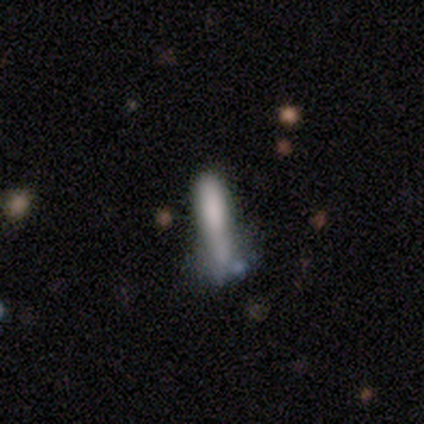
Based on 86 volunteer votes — Overall: smooth (60%; featured or disk 22%). How rounded: cigar-shaped (79%). Merging: none (41%; minor disturbance 25%).